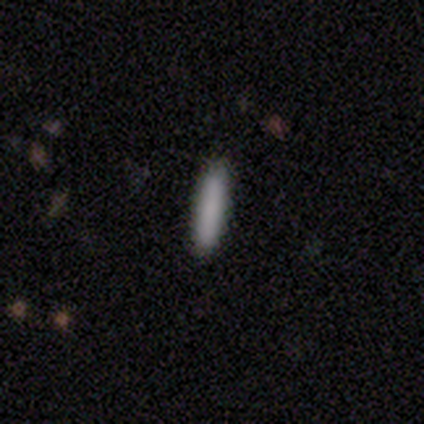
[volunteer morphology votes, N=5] Volunteers were most divided on "smooth or featured": smooth: 80%, star or artifact: 20%, featured or disk: 0%. More confident: how rounded — cigar-shaped (100%); merging — none (100%).